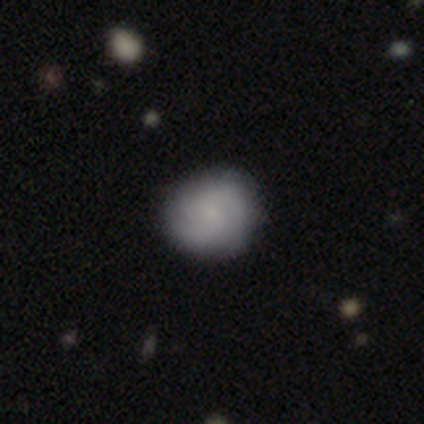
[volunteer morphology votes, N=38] Smooth or featured: smooth — 53% (featured or disk — 39%)
How rounded: round — 85% (in between — 15%)
Merging: none — 57% (minor disturbance — 17%)